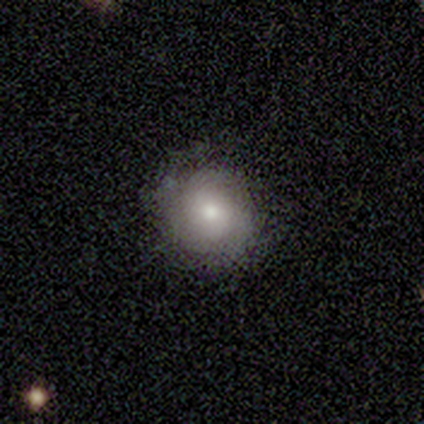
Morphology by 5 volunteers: This is likely a featured or disk galaxy (60%). It is clearly not viewed edge-on (100%). Bar: clearly no (100%). Spiral arm pattern: likely yes (67%). Spiral arm count: clearly can't tell (100%). Spiral winding: clearly tight (100%). Central bulge: clearly moderate (100%). Merging: possibly none (50%).